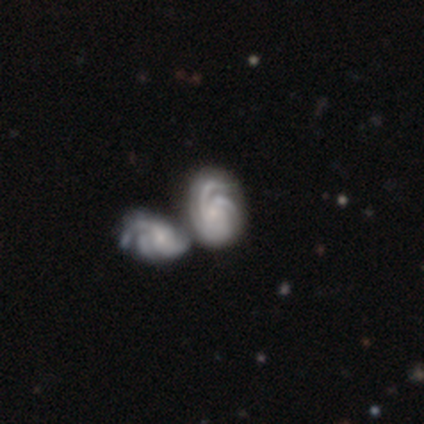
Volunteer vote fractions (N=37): Smooth or featured?
  - featured or disk: 92% *
  - smooth: 8%
  - star or artifact: 0%
Edge-on disk?
  - no: 100% *
  - yes: 0%
Bar?
  - no: 71% *
  - weak: 21%
  - strong: 9%
Spiral arms?
  - yes: 100% *
  - no: 0%
Spiral winding?
  - tight: 62% *
  - medium: 35%
  - loose: 3%
Spiral arm count?
  - 3: 38% *
  - can't tell: 35%
  - 2: 12%
  - 4: 9%
  - more than 4: 6%
  - 1: 0%
Bulge size?
  - small: 56% *
  - none: 24%
  - moderate: 21%
  - dominant: 0%
  - large: 0%
Merging?
  - merger: 70% *
  - none: 3%
  - minor disturbance: 3%
  - major disturbance: 3%